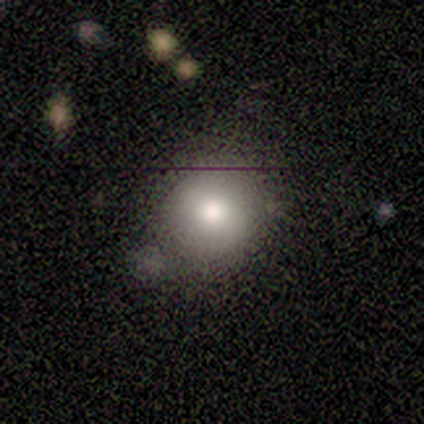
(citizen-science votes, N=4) Smooth or featured? smooth (100%)
How rounded? round (100%)
Merging? none (100%)